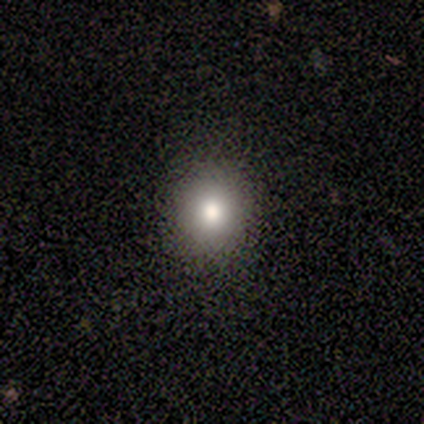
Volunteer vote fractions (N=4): smooth 75%, star or artifact 25%, featured or disk 0%. Down the decision tree: how rounded — round (100%); merging — none (67%).